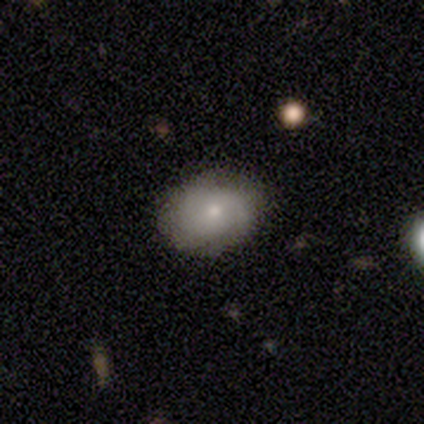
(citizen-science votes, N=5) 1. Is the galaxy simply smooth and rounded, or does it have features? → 60% featured or disk, 40% smooth, 0% star or artifact.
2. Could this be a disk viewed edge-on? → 100% no, 0% yes.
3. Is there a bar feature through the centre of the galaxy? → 67% weak, 33% no, 0% strong.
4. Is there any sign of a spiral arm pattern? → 67% yes, 33% no.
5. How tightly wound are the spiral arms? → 50% tight (tied), 50% medium (tied), 0% loose.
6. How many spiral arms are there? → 50% 2 (tied), 50% can't tell (tied), 0% 1, 0% 3, 0% 4, 0% more than 4.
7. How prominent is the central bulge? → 67% small, 33% moderate, 0% dominant, 0% large, 0% none.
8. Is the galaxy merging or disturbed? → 80% none, 20% minor disturbance, 0% major disturbance, 0% merger.